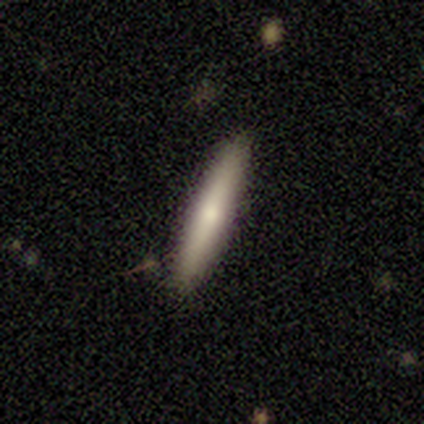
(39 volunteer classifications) Volunteers were most divided on "smooth or featured": smooth: 64%, featured or disk: 31%, star or artifact: 5%. More confident: how rounded — cigar-shaped (100%); merging — none (86%).